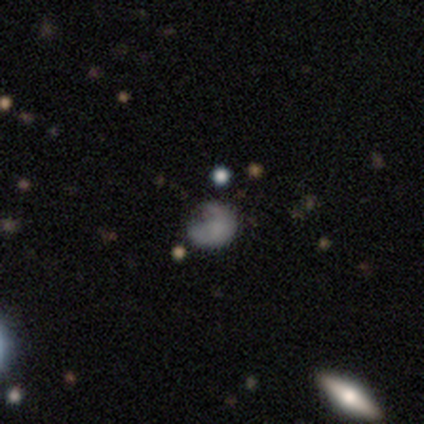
Smooth or featured: smooth — 80% (star or artifact — 20%)
How rounded: round — 75% (in between — 25%)
Merging: none — 50% (minor disturbance — 25%)